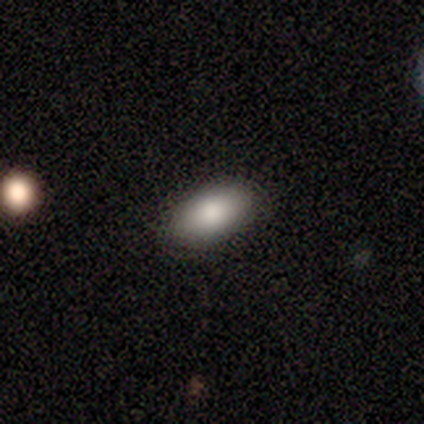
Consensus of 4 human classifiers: A smooth galaxy with no disk features (100%) that is in between round and cigar-shaped (100%).

Vote fractions:
- Smooth or featured? smooth: 100% / featured or disk: 0% / star or artifact: 0%
- How rounded? in between: 100% / round: 0% / cigar-shaped: 0%
- Merging? none: 75% / major disturbance: 25% / minor disturbance: 0% / merger: 0%